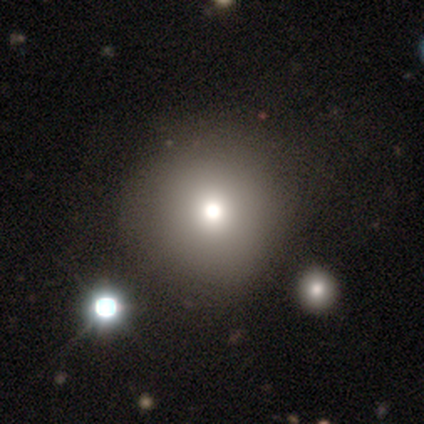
Q: Smooth or featured?
A: smooth (92%); runner-up: star or artifact (8%)
Q: How rounded?
A: round (96%); runner-up: in between (4%)
Q: Merging?
A: none (39%); runner-up: merger (13%)